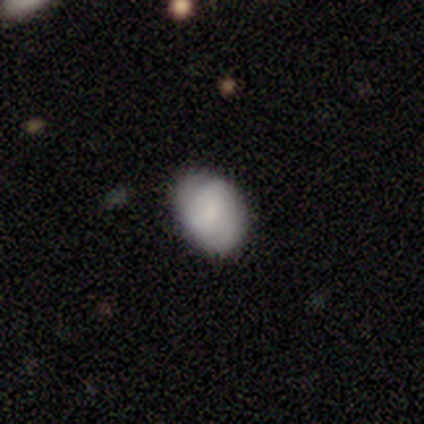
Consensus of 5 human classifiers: This appears to be a smooth galaxy with no disk features (100%) that is in between round and cigar-shaped (60%). Merging: none (100%).